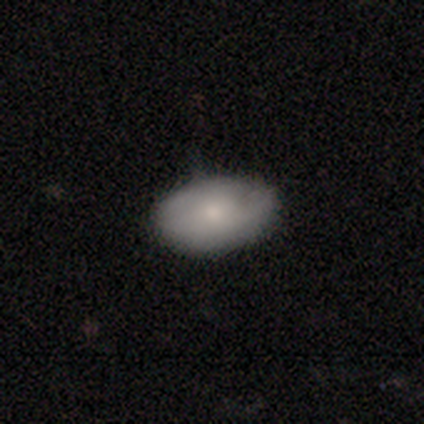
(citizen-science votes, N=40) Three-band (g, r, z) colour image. It shows a smooth galaxy with no disk features (78%) that is in between round and cigar-shaped (97%). Merging: none (66%).